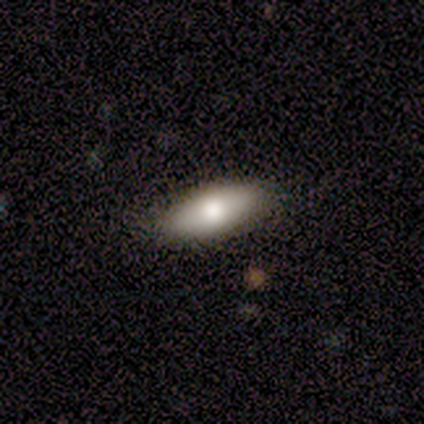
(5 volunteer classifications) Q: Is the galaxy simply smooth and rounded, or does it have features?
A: smooth — 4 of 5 (80%).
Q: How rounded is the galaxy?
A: in between — 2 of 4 (50%, tied with cigar-shaped).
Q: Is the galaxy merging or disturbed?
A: none — 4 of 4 (100%).